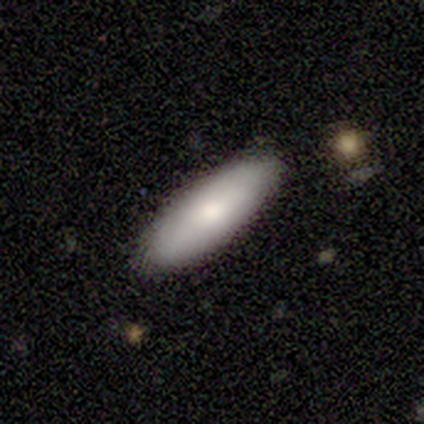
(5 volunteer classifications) Q: Smooth or featured?
A: smooth (80%); runner-up: featured or disk (20%)
Q: How rounded?
A: in between (50%); tied with: cigar-shaped (50%)
Q: Merging?
A: none (100%)